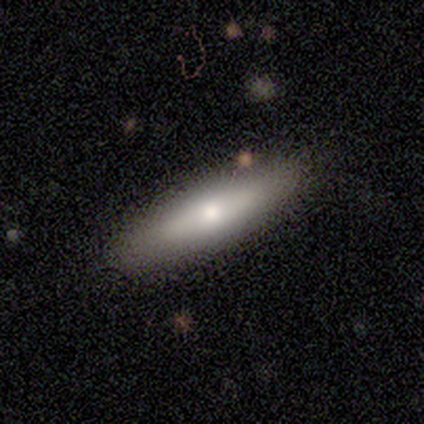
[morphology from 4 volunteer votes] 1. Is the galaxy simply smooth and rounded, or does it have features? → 100% smooth, 0% featured or disk, 0% star or artifact.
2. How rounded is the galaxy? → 50% in between (tied), 50% cigar-shaped (tied), 0% round.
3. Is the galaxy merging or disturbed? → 75% none, 25% minor disturbance, 0% major disturbance, 0% merger.